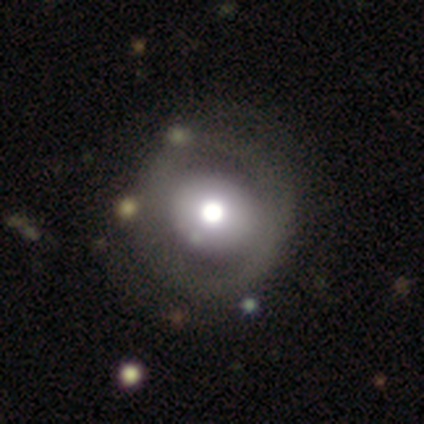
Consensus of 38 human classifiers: Morphology: type=featured or disk (53%); edge-on=no (100%); bar=no (90%); spiral arms=no (85%); bulge=moderate (50%); merging=none (46%).